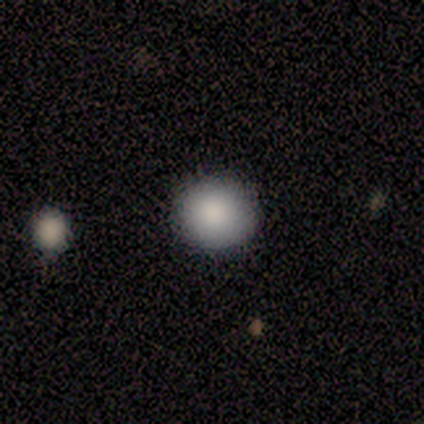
Smooth or featured? smooth (100%)
How rounded? round (80%)
Merging? none (60%)